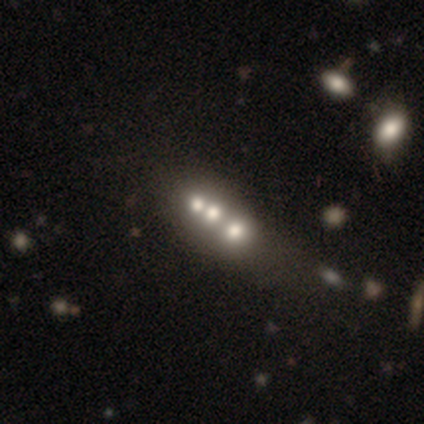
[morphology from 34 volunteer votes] smooth 53%, featured or disk 35%, star or artifact 12%. Down the decision tree: how rounded — round (61%); merging — merger (57%).